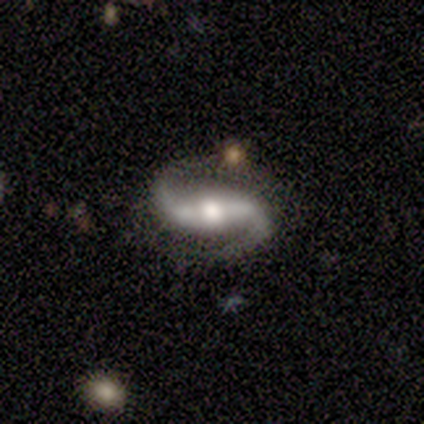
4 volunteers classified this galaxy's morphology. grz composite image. It shows a featured or disk galaxy (100%) with a strong bar (100%), 2 (100%) medium (50%, tied with loose) spiral arms (100%) and a moderate central bulge (75%). Merging: none (100%).